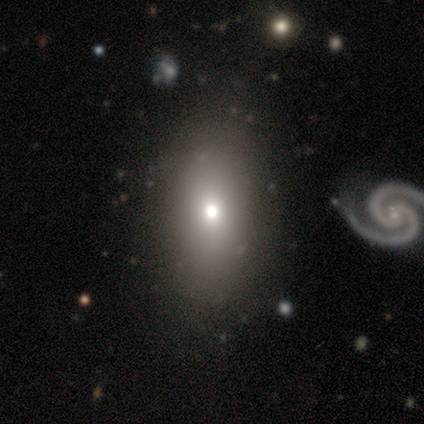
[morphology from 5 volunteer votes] Overall: star or artifact (60%; smooth 20%).